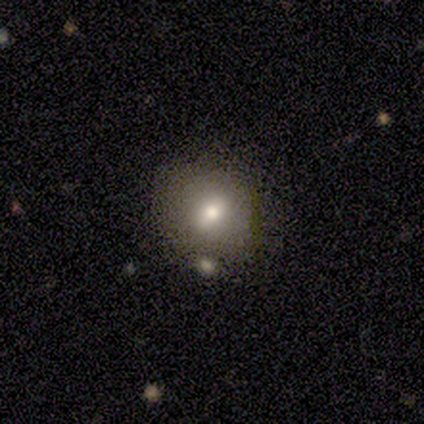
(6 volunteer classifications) A smooth galaxy with no disk features (83%) that is round (100%).

Vote fractions:
- Smooth or featured? smooth: 83% / featured or disk: 17% / star or artifact: 0%
- How rounded? round: 100% / in between: 0% / cigar-shaped: 0%
- Merging? none: 83% / minor disturbance: 17% / major disturbance: 0% / merger: 0%